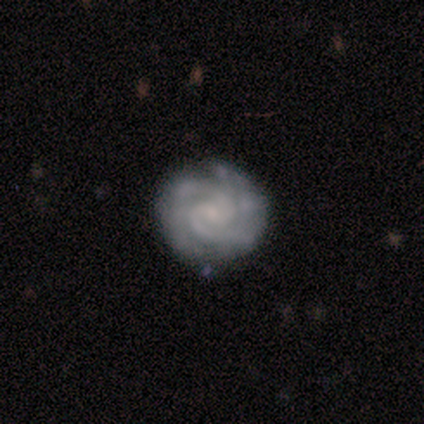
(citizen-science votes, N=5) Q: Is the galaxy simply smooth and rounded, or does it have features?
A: featured or disk — 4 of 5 (80%).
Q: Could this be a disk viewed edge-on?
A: no — 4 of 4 (100%).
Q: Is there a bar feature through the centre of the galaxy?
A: no — 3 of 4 (75%).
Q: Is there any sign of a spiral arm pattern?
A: yes — 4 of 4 (100%).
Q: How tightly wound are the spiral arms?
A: tight — 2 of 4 (50%, tied with medium).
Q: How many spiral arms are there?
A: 2 — 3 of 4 (75%).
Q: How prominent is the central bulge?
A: small — 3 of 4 (75%).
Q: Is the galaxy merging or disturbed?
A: none — 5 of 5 (100%).